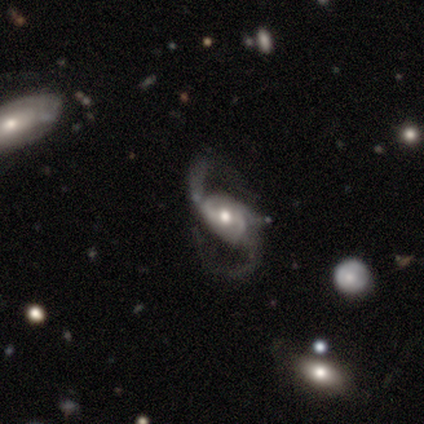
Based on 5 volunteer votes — Overall: featured or disk (80%). Edge-on disk: no (100%). Bar: no (75%). Spiral arms: yes (100%). Spiral arm count: 2 (100%). Spiral winding: loose (75%). Bulge size: moderate (50%, tied with small). Merging: none (80%).